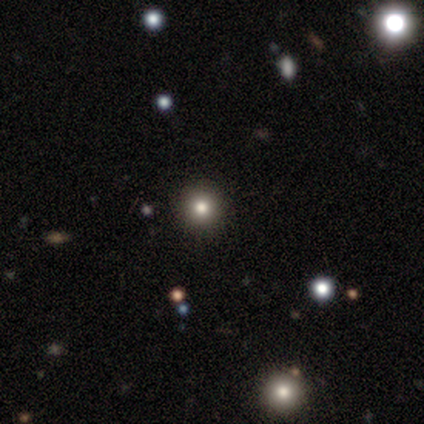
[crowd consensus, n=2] Q: Smooth or featured?
A: smooth (50%); tied with: featured or disk (50%)
Q: How rounded?
A: round (100%)
Q: Merging?
A: none (100%)